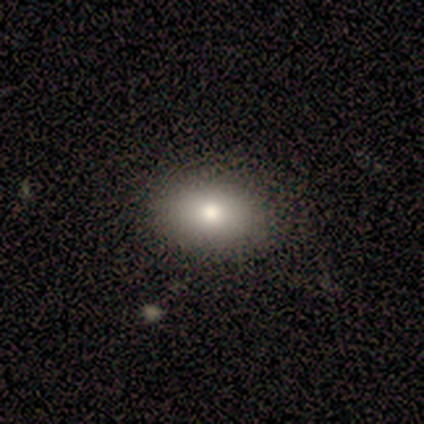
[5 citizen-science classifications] smooth-or-featured: smooth: 60% | featured or disk: 40% | star or artifact: 0%
  how-rounded: in between: 67% | cigar-shaped: 33% | round: 0%
  merging: none: 80% | minor disturbance: 20% | major disturbance: 0% | merger: 0%